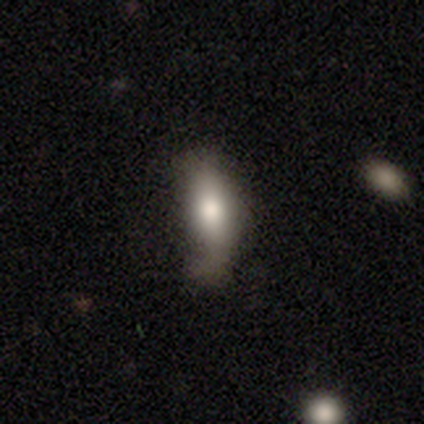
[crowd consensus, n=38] Overall: smooth (58%; featured or disk 39%). How rounded: in between (68%; cigar-shaped 32%). Merging: minor disturbance (24%; major disturbance 19%).